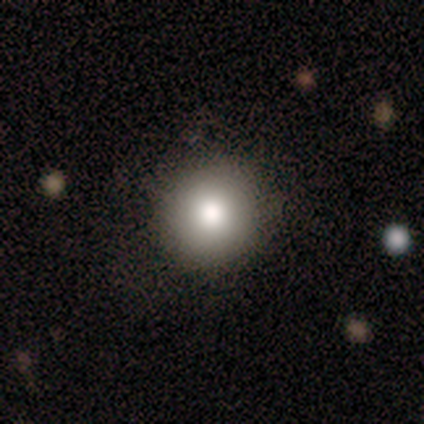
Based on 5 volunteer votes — Overall: smooth (60%; star or artifact 40%). How rounded: round (100%). Merging: none (100%).